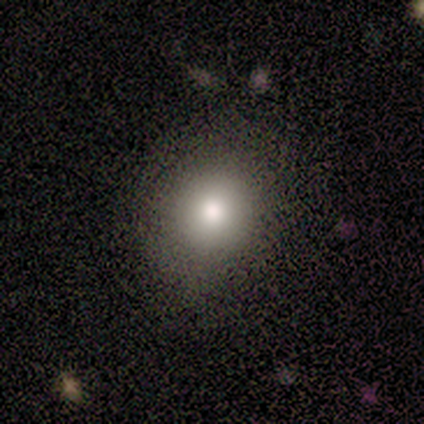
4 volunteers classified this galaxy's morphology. smooth 75%, star or artifact 25%, featured or disk 0%. Down the decision tree: how rounded — round (100%); merging — none (100%).